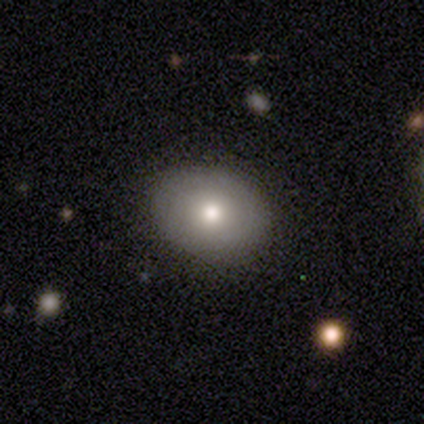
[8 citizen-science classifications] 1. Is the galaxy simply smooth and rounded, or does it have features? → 88% smooth, 12% featured or disk, 0% star or artifact.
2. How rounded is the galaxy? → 71% in between, 29% round, 0% cigar-shaped.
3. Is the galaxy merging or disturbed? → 62% none, 38% minor disturbance, 0% major disturbance, 0% merger.